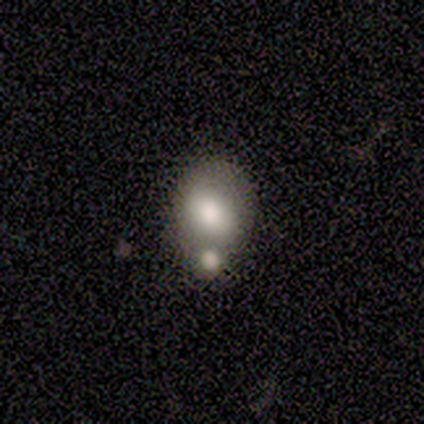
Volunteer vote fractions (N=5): A smooth galaxy with no disk features (40%, tied with featured or disk) that is round (50%, tied with in between). Merging: merger (50%).